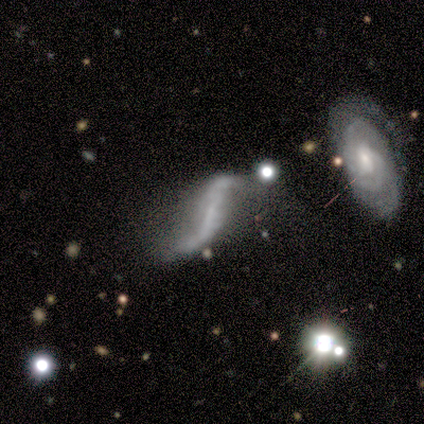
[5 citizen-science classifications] Smooth or featured: featured or disk — 60% (star or artifact — 40%)
Edge-on disk: no — 100%
Bar: weak — 67% (strong — 33%)
Spiral arms: yes — 67% (no — 33%)
Spiral winding: loose — 100%
Spiral arm count: 2 — 50% (tied with can't tell — 50%)
Bulge size: small — 67% (none — 33%)
Merging: none — 67% (merger — 33%)